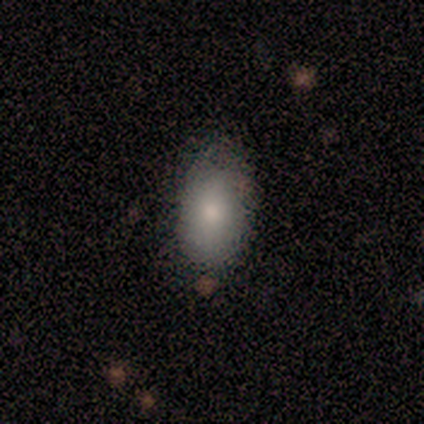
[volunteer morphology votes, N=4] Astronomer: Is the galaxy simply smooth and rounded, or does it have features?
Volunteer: smooth — 50%, tied with featured or disk at 50%.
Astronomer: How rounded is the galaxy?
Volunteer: in between — 100%.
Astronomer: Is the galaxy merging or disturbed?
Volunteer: none — 50%, tied with minor disturbance at 50%.